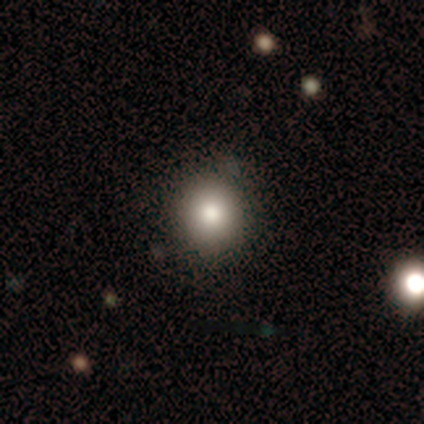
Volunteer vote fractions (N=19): smooth 68%, featured or disk 21%, star or artifact 11%. Down the decision tree: how rounded — round (100%); merging — none (82%).